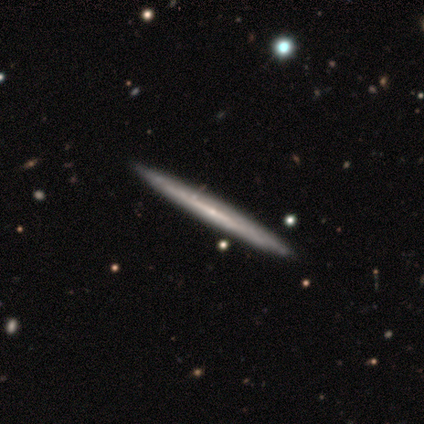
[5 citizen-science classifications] A featured or disk galaxy (80%) viewed edge-on (100%) with no central bulge (75%). Merging: none (80%).